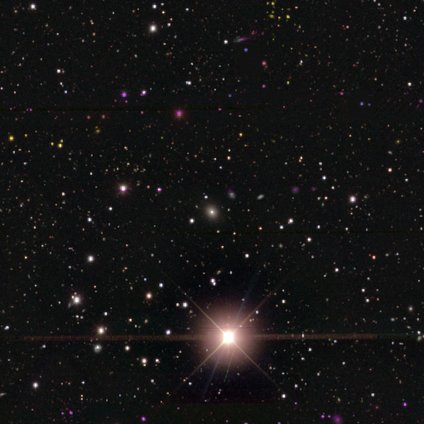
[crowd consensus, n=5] A star or artifact, not a galaxy (60%).

Vote fractions:
- Smooth or featured? star or artifact: 60% / smooth: 40% / featured or disk: 0%